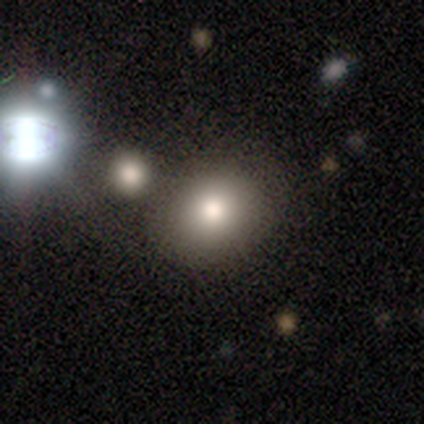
Morphology: type=smooth (100%); roundness=round (80%); merging=none (100%).